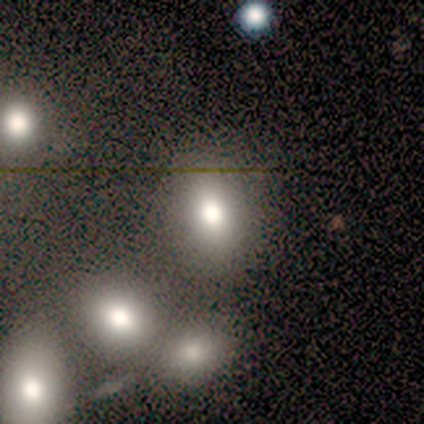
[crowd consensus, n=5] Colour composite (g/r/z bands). It shows a smooth galaxy with no disk features (60%) that is in between round and cigar-shaped (100%). Merging: none (75%).